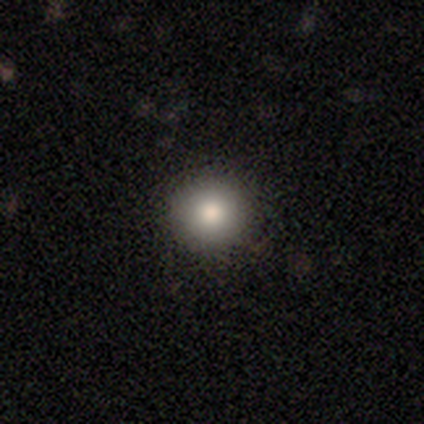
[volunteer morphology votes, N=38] smooth 71%, star or artifact 21%, featured or disk 8%. Down the decision tree: how rounded — round (89%); merging — none (87%).